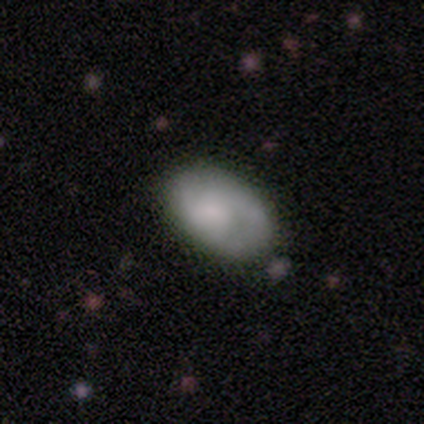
Smooth or featured? 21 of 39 (54%) said smooth. How rounded? 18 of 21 (86%) said in between. Merging? 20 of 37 (54%) said none.